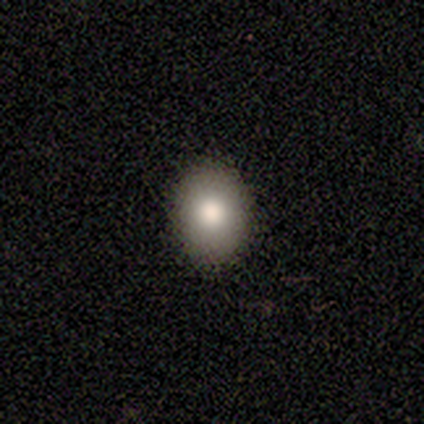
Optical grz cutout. It shows a smooth galaxy with no disk features (60%) that is in between round and cigar-shaped (67%). Merging: none (100%).